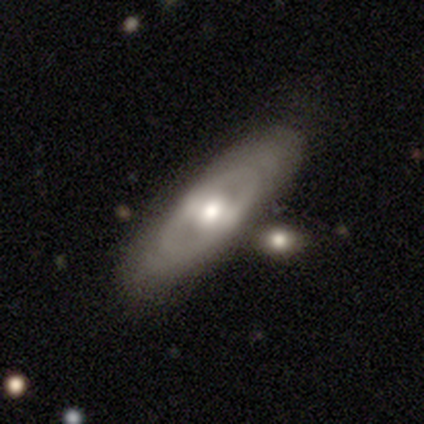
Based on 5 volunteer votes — A featured or disk galaxy (80%) with no bar (75%), no spiral arms (100%) and a large central bulge (50%, tied with moderate).

Vote fractions:
- Smooth or featured? featured or disk: 80% / smooth: 20% / star or artifact: 0%
- Edge-on disk? no: 100% / yes: 0%
- Bar? no: 75% / strong: 25% / weak: 0%
- Spiral arms? no: 100% / yes: 0%
- Bulge size? large: 50% (tied) / moderate: 50% (tied) / dominant: 0% / small: 0% / none: 0%
- Merging? none: 80% / minor disturbance: 20% / major disturbance: 0% / merger: 0%